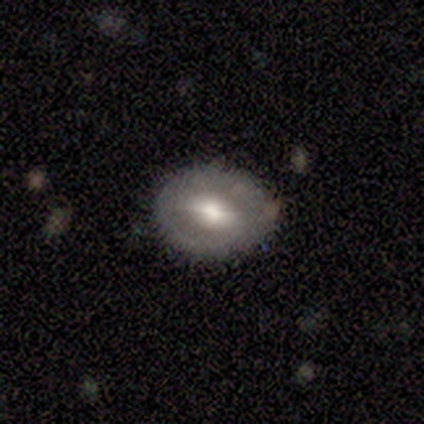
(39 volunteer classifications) Q: Smooth or featured?
A: featured or disk (56%); runner-up: smooth (38%)
Q: Edge-on disk?
A: no (91%); runner-up: yes (9%)
Q: Bar?
A: no (85%); runner-up: weak (10%)
Q: Spiral arms?
A: no (80%); runner-up: yes (20%)
Q: Bulge size?
A: moderate (65%); runner-up: large (25%)
Q: Merging?
A: none (76%); runner-up: minor disturbance (19%)